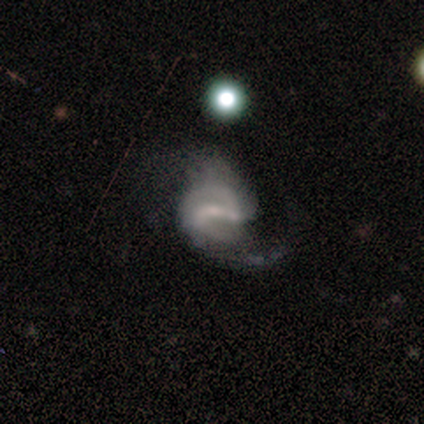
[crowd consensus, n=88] Volunteers were most divided on "spiral winding": loose: 45%, medium: 42%, tight: 12%. Remaining: edge-on disk — no (97%); spiral arms — yes (91%); smooth or featured — featured or disk (82%); spiral arm count — 2 (70%); bar — weak (53%); bulge size — small (44%); merging — none (41%).